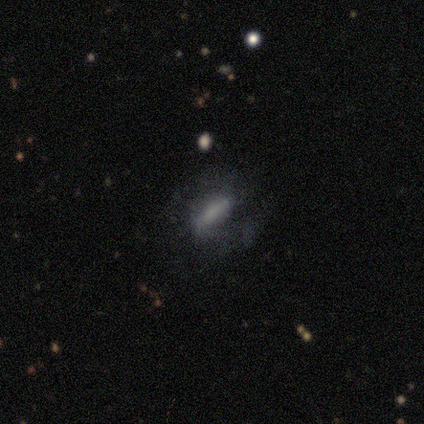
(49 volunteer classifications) Overall: smooth (53%; featured or disk 39%). How rounded: cigar-shaped (46%; in between 42%). Merging: none (73%).